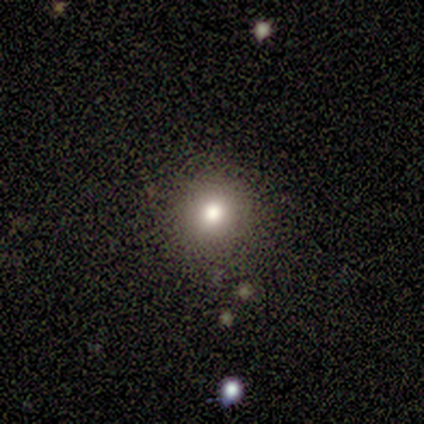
A smooth galaxy with no disk features (60%) that is round (100%). Merging: none (100%).